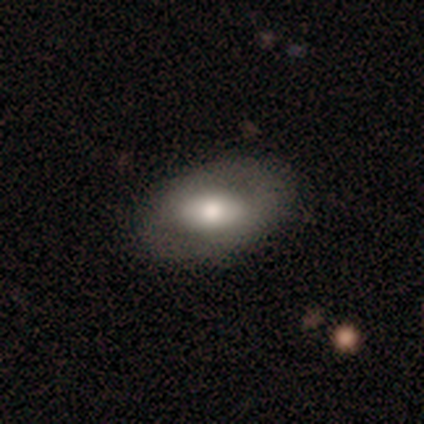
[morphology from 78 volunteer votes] type=smooth (51%); roundness=in between (92%); merging=none (54%).